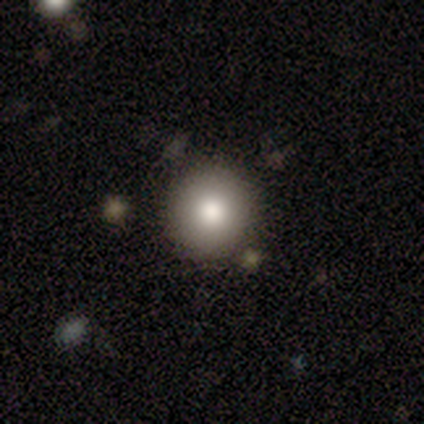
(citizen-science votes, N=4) A smooth galaxy with no disk features (75%) that is round (100%). Merging: none (100%).